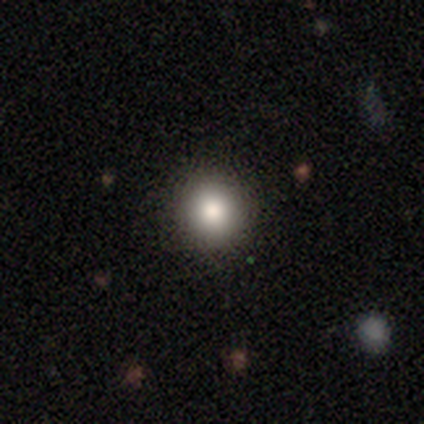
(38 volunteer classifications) smooth_or_featured: smooth (p=0.95) [alt: featured or disk p=0.03]
how_rounded: round (p=1.00)
merging: none (p=0.97) [alt: minor disturbance p=0.03]